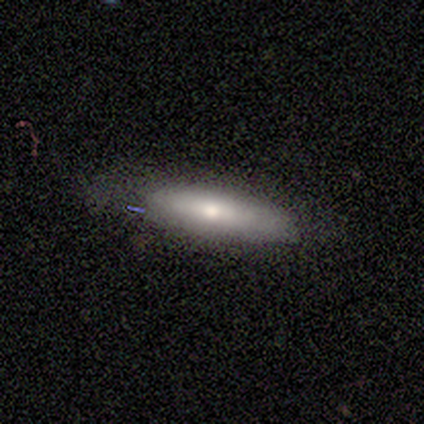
Smooth or featured? 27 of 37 (73%) said smooth. How rounded? 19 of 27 (70%) said cigar-shaped. Merging? 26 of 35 (74%) said none.